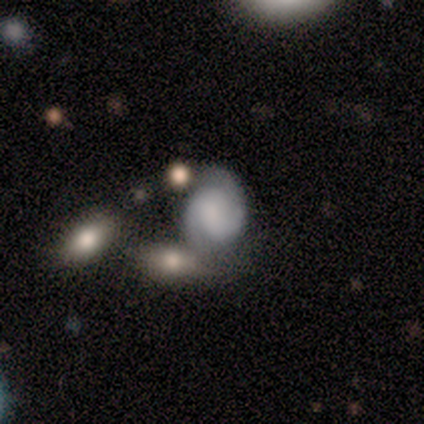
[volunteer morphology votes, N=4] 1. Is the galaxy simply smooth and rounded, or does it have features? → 75% featured or disk, 25% smooth, 0% star or artifact.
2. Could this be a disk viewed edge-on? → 100% no, 0% yes.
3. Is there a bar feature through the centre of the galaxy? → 67% weak, 33% no, 0% strong.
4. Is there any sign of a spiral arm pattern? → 67% yes, 33% no.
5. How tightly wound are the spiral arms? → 50% tight (tied), 50% loose (tied), 0% medium.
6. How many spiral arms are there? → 50% 1 (tied), 50% 3 (tied), 0% 2, 0% 4, 0% more than 4, 0% can't tell.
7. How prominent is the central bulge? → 67% none, 33% small, 0% dominant, 0% large, 0% moderate.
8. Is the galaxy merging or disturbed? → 50% major disturbance, 25% none, 25% merger, 0% minor disturbance.